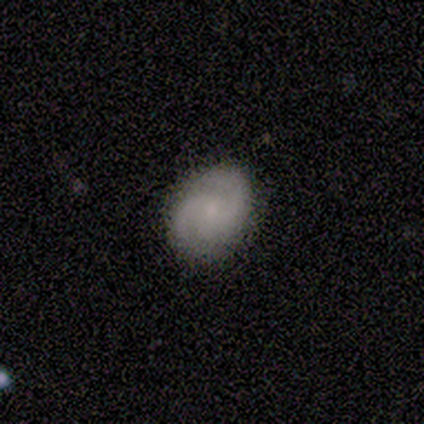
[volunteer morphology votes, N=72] This is likely a featured or disk galaxy (67%). It is clearly not viewed edge-on (96%). Bar: likely no (70%). Spiral arm pattern: clearly yes (98%). Spiral arm count: clearly 2 (87%). Spiral winding: possibly medium (53%). Central bulge: likely small (76%). Merging: likely none (76%).